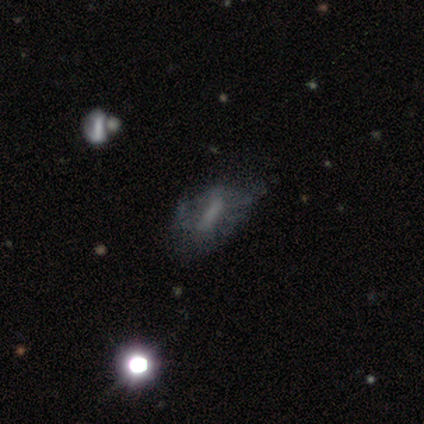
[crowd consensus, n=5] Volunteers were most divided on "smooth or featured" (2-way tie): smooth: 40%, featured or disk: 40%, star or artifact: 20%. More confident: how rounded — in between (100%); merging — minor disturbance (50%).